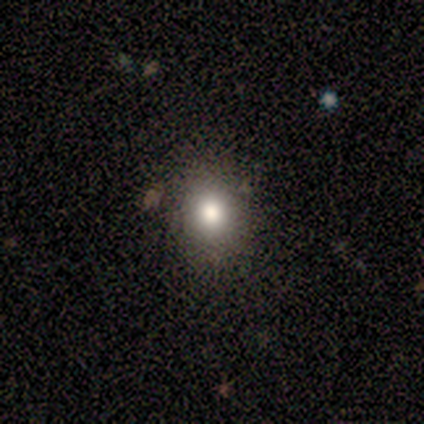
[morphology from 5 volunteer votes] Smooth or featured?
  - smooth: 80% *
  - star or artifact: 20%
  - featured or disk: 0%
How rounded?
  - round: 75% *
  - in between: 25%
  - cigar-shaped: 0%
Merging?
  - none: 100% *
  - minor disturbance: 0%
  - major disturbance: 0%
  - merger: 0%